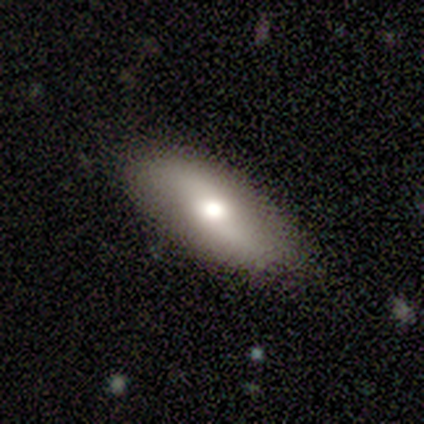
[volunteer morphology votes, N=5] type=smooth (80%); roundness=in between (75%); merging=none (60%).